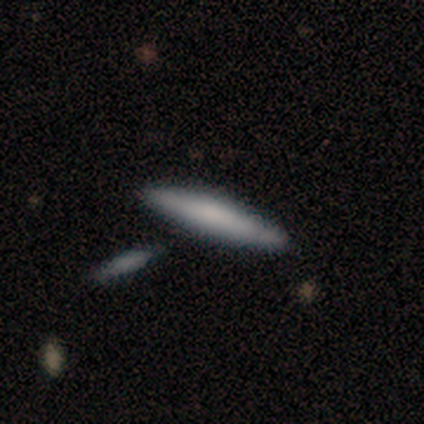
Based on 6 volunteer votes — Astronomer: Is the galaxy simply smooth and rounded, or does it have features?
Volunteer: smooth — 50% (runner-up: featured or disk, 33%).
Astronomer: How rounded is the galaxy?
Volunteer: cigar-shaped — 100%.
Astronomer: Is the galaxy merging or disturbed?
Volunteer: none — 40%, tied with merger at 40%.